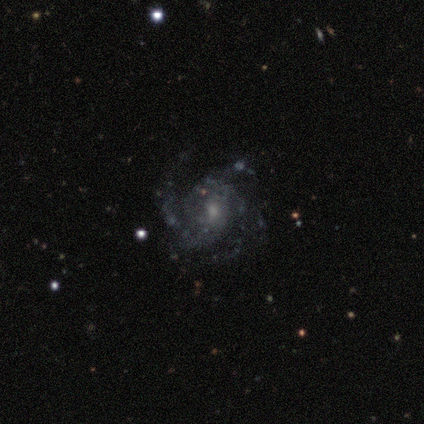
Morphology: type=featured or disk (89%); edge-on=no (97%); bar=no (64%); spiral arms=yes (97%); winding=medium (50%); arm count=3 (34%); bulge=small (48%); merging=none (77%).